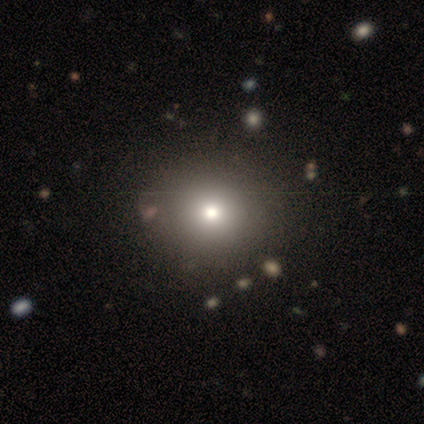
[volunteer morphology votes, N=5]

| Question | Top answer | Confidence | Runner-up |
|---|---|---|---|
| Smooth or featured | smooth | 80% | featured or disk (20%) |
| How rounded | round | 75% | in between (25%) |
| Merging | none | 100% | — |